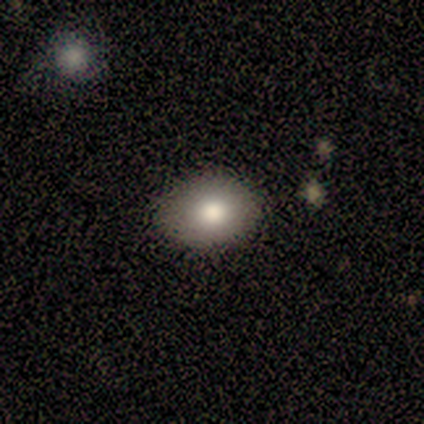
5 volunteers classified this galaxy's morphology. Smooth or featured: smooth — 80% (featured or disk — 20%)
How rounded: in between — 100%
Merging: none — 80% (minor disturbance — 20%)